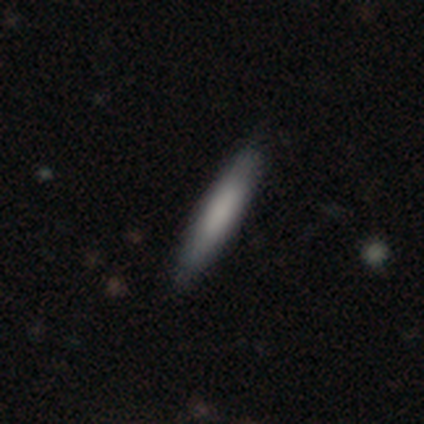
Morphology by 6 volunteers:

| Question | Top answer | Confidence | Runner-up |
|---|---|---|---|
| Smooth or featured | smooth | 83% | featured or disk (17%) |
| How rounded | cigar-shaped | 60% | in between (40%) |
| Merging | none | 100% | — |